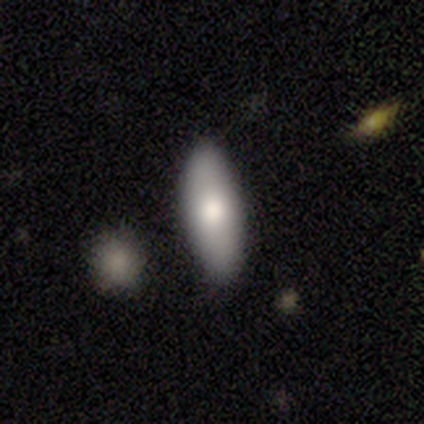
Smooth or featured: smooth — 86% (featured or disk — 7%)
How rounded: in between — 63% (cigar-shaped — 32%)
Merging: none — 76% (minor disturbance — 12%)